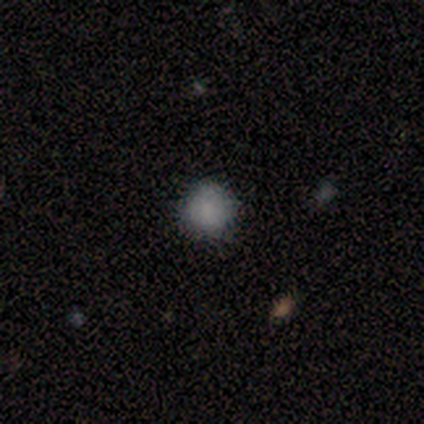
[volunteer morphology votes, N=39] smooth_or_featured: smooth (p=0.77) [alt: star or artifact p=0.18]
how_rounded: round (p=0.93) [alt: in between p=0.03]
merging: none (p=0.84) [alt: minor disturbance p=0.09]